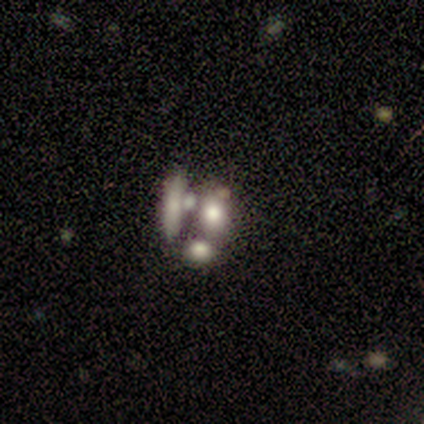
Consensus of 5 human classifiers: Smooth or featured? smooth (60%)
How rounded? in between (67%)
Merging? none (50%)